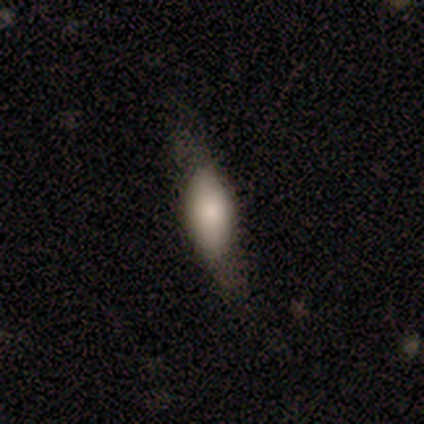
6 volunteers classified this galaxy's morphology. A smooth galaxy with no disk features (83%) that is in between round and cigar-shaped (60%). Merging: none (83%).